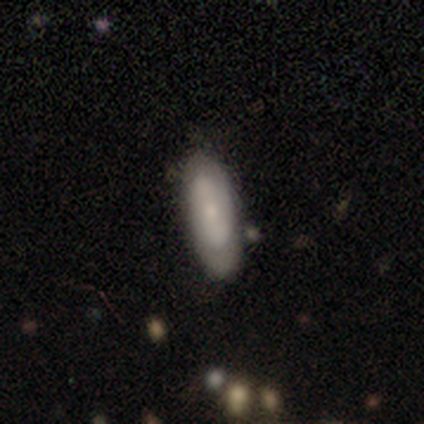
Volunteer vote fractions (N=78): smooth-or-featured: smooth: 56% | featured or disk: 40% | star or artifact: 4%
  how-rounded: in between: 77% | cigar-shaped: 23% | round: 0%
  merging: none: 44% | minor disturbance: 12% | merger: 5% | major disturbance: 3%